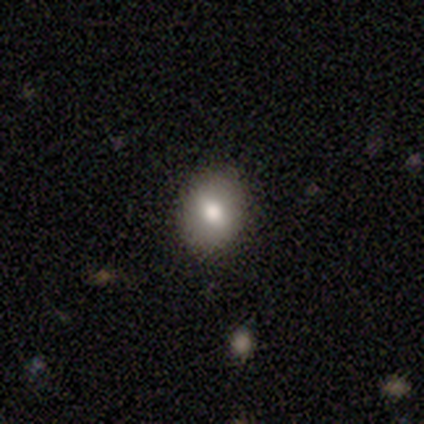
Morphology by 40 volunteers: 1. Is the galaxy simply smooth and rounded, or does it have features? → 68% smooth, 18% featured or disk, 15% star or artifact.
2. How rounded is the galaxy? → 48% round (tied), 48% in between (tied), 4% cigar-shaped.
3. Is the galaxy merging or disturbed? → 88% none, 9% minor disturbance, 3% major disturbance, 0% merger.